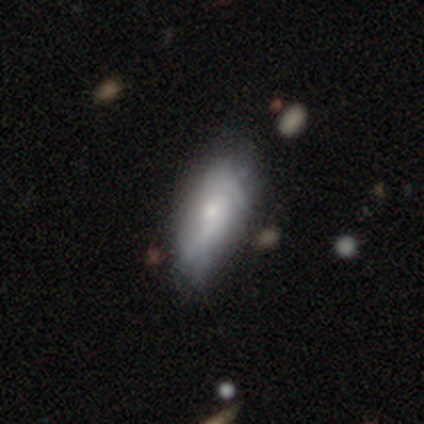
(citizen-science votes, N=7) Q: Smooth or featured?
A: smooth (57%); runner-up: featured or disk (43%)
Q: How rounded?
A: in between (75%); runner-up: cigar-shaped (25%)
Q: Merging?
A: minor disturbance (71%); runner-up: none (29%)